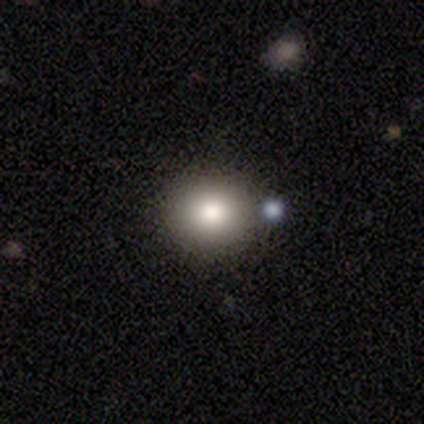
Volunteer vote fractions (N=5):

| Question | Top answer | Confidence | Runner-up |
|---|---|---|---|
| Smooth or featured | smooth | 100% | — |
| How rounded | round | 100% | — |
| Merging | none | 100% | — |